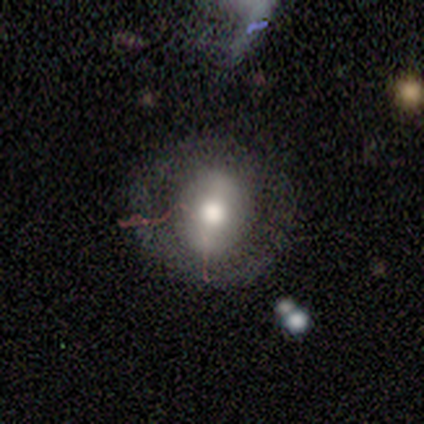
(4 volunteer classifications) This is likely a smooth galaxy (75%). How rounded: clearly round (100%). Merging: possibly none (50%, tied with major disturbance).